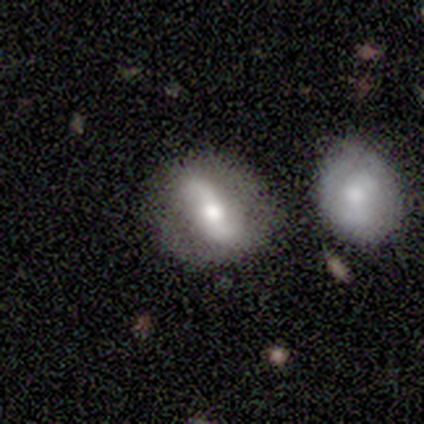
Q: Smooth or featured?
A: featured or disk (100%)
Q: Edge-on disk?
A: no (100%)
Q: Bar?
A: strong (40%); tied with: weak (40%)
Q: Spiral arms?
A: yes (80%); runner-up: no (20%)
Q: Spiral winding?
A: loose (75%); runner-up: tight (25%)
Q: Spiral arm count?
A: 2 (100%)
Q: Bulge size?
A: moderate (60%); runner-up: small (40%)
Q: Merging?
A: none (60%); runner-up: minor disturbance (20%)